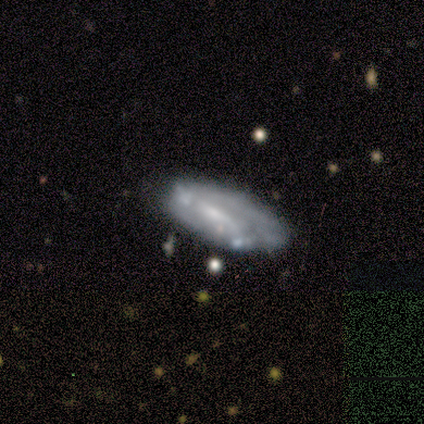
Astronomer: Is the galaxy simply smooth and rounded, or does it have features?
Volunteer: featured or disk — 88%.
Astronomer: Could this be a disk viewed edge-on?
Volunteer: no — 100%.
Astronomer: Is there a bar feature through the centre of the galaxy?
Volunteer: weak — 57% (runner-up: no, 43%).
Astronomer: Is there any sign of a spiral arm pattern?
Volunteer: no — 57% (runner-up: yes, 43%).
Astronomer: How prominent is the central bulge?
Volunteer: small — 57%.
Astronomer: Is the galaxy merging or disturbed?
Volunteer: none — 50% (runner-up: minor disturbance, 38%).